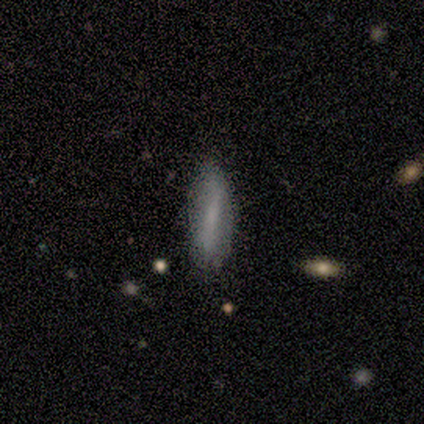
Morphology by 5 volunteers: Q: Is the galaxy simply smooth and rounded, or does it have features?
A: smooth — 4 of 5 (80%).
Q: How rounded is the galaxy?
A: in between — 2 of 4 (50%, tied with cigar-shaped).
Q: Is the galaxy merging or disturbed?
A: none — 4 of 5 (80%).